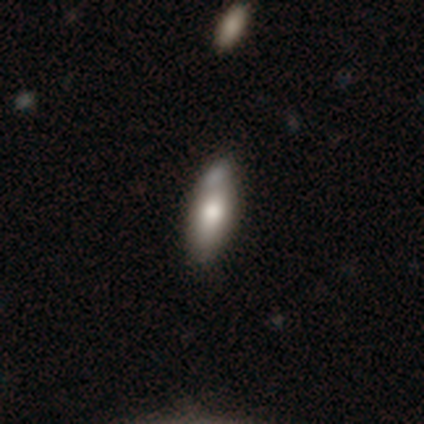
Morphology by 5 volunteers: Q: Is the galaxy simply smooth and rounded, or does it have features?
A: smooth — 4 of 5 (80%).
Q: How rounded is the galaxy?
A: in between — 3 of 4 (75%).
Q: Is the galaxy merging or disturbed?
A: none — 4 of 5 (80%).